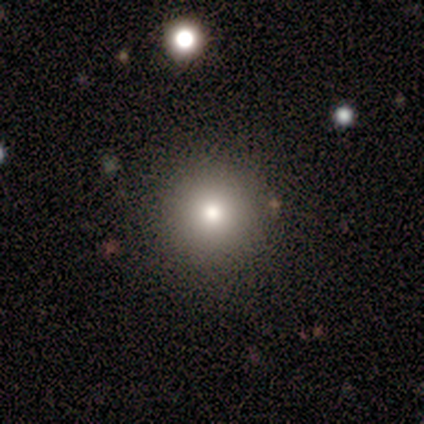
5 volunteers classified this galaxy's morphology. This is clearly a smooth galaxy (80%). How rounded: clearly round (100%). Merging: clearly none (80%).